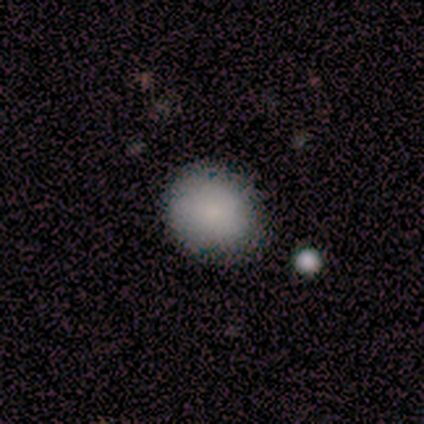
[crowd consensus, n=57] A smooth galaxy with no disk features (89%) that is round (75%).

Vote fractions:
- Smooth or featured? smooth: 89% / featured or disk: 5% / star or artifact: 5%
- How rounded? round: 75% / in between: 25% / cigar-shaped: 0%
- Merging? none: 76% / minor disturbance: 17% / major disturbance: 6% / merger: 2%